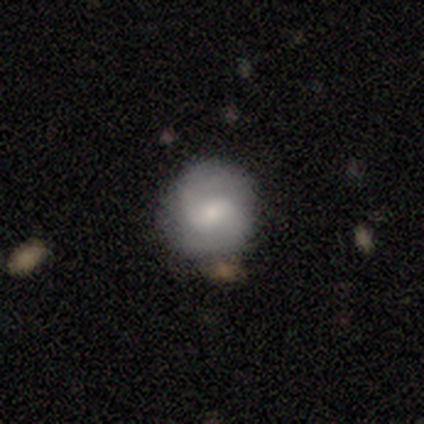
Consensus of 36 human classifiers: smooth_or_featured: featured or disk (p=0.64) [alt: smooth p=0.36]
disk_edge_on: no (p=0.96) [alt: yes p=0.04]
bar: weak (p=0.68) [alt: no p=0.18]
has_spiral_arms: yes (p=0.95) [alt: no p=0.05]
spiral_winding: medium (p=0.57) [alt: tight p=0.38]
spiral_arm_count: 2 (p=0.90) [alt: can't tell p=0.10]
bulge_size: moderate (p=0.64) [alt: small p=0.27]
merging: none (p=0.78) [alt: minor disturbance p=0.19]